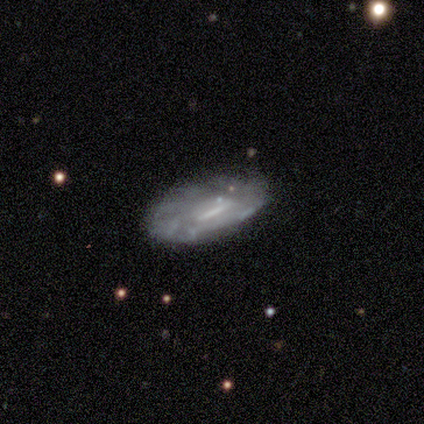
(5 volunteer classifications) Morphology: type=featured or disk (80%); edge-on=no (100%); bar=weak (75%); spiral arms=no (75%); bulge=small (50%, tied with none); merging=none (60%).